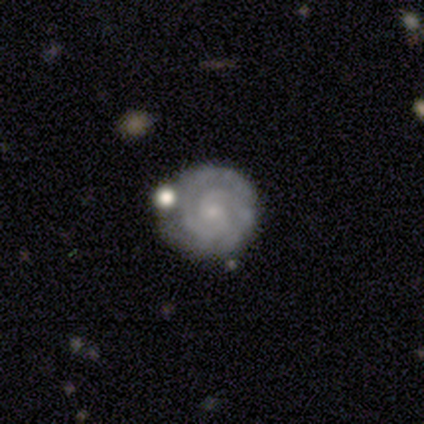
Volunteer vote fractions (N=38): Volunteers were most divided on "bar": no: 78%, weak: 22%, strong: 0%. More confident: edge-on disk — no (100%); spiral arms — yes (97%); smooth or featured — featured or disk (95%); spiral winding — tight (89%); bulge size — small (81%); spiral arm count — 2 (80%); merging — none (68%).